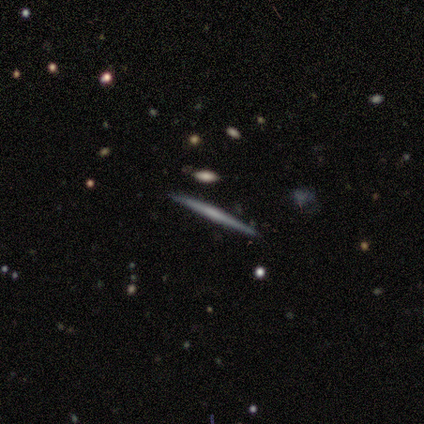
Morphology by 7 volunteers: smooth_or_featured: featured or disk (p=0.71) [alt: smooth p=0.14]
disk_edge_on: yes (p=1.00)
edge_on_bulge: boxy (p=0.40) [tied with: rounded p=0.40]
merging: none (p=0.83) [alt: minor disturbance p=0.17]